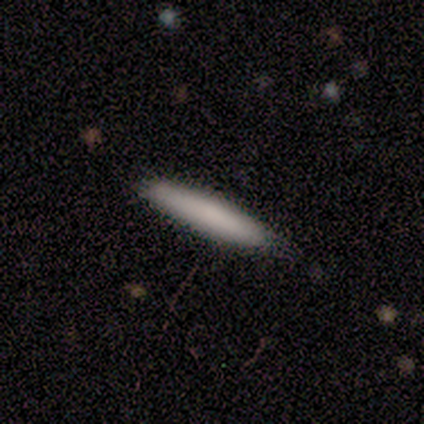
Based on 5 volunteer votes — Smooth or featured?
  - smooth: 80% *
  - featured or disk: 20%
  - star or artifact: 0%
How rounded?
  - cigar-shaped: 100% *
  - round: 0%
  - in between: 0%
Merging?
  - none: 100% *
  - minor disturbance: 0%
  - major disturbance: 0%
  - merger: 0%